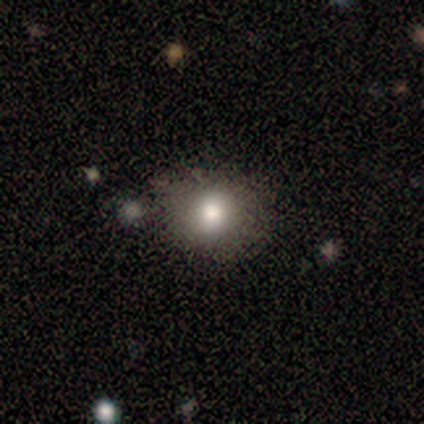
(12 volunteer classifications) A smooth galaxy with no disk features (83%) that is round (90%). Merging: none (82%).